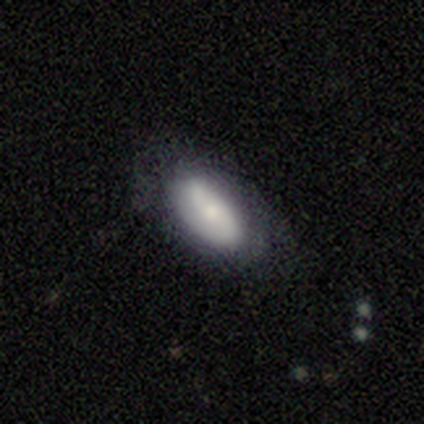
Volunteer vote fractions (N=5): Overall: featured or disk (60%; smooth 40%). Edge-on disk: no (67%; yes 33%). Bar: strong (50%, tied with no). Spiral arms: yes (100%). Spiral arm count: 1 (50%, tied with 2). Spiral winding: medium (50%, tied with loose). Bulge size: large (50%, tied with small). Merging: none (100%).